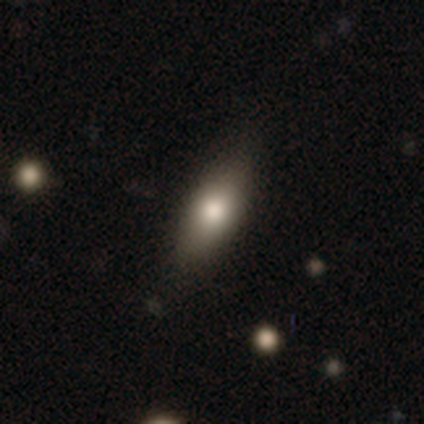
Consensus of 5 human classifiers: Q: Smooth or featured?
A: smooth (40%); tied with: featured or disk (40%)
Q: How rounded?
A: in between (100%)
Q: Merging?
A: none (50%); tied with: minor disturbance (50%)